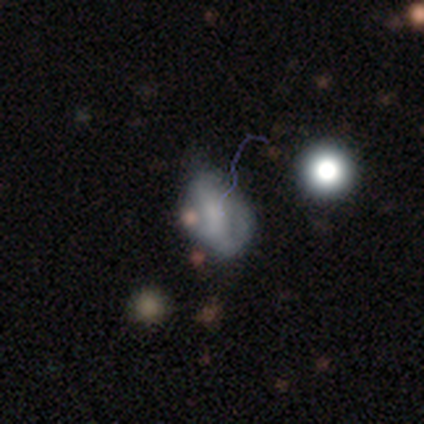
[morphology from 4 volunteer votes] Overall: smooth (50%; featured or disk 25%). How rounded: in between (100%). Merging: none (67%; major disturbance 33%).